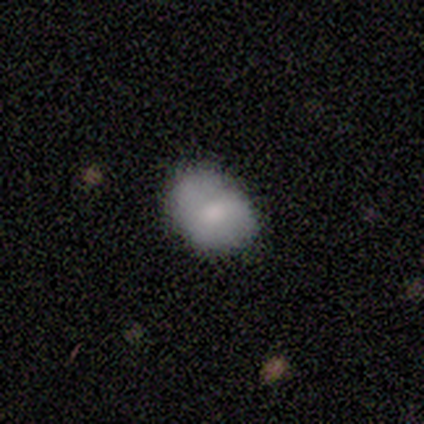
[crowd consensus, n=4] smooth 75%, featured or disk 25%, star or artifact 0%. Down the decision tree: how rounded — in between (67%); merging — none (50%, tied with minor disturbance).